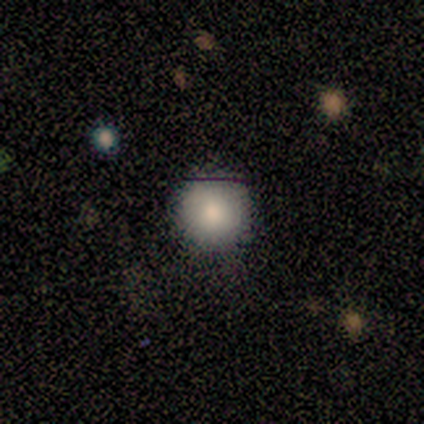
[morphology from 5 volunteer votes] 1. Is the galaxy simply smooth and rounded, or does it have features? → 80% smooth, 20% featured or disk, 0% star or artifact.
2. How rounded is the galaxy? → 100% round, 0% in between, 0% cigar-shaped.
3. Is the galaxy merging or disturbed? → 60% none, 20% minor disturbance, 20% major disturbance, 0% merger.